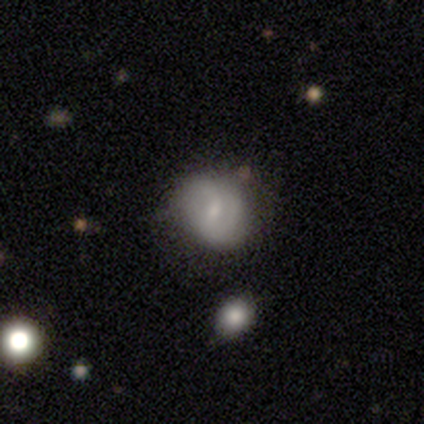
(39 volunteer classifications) This appears to be a smooth galaxy with no disk features (46%, tied with featured or disk) that is round (61%). Merging: none (64%).